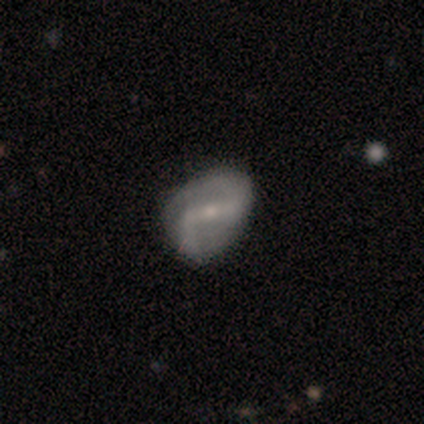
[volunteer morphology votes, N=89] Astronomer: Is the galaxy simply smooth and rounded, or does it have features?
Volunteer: featured or disk — 76%.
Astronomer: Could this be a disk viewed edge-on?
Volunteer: no — 99%.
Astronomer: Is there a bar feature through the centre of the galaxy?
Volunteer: strong — 54% (runner-up: weak, 36%).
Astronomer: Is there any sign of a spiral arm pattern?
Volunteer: yes — 94%.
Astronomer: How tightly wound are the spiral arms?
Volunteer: loose — 54% (runner-up: medium, 32%).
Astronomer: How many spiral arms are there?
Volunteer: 2 — 95%.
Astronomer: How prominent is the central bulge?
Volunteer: small — 66%.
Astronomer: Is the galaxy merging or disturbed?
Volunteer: none — 59%.